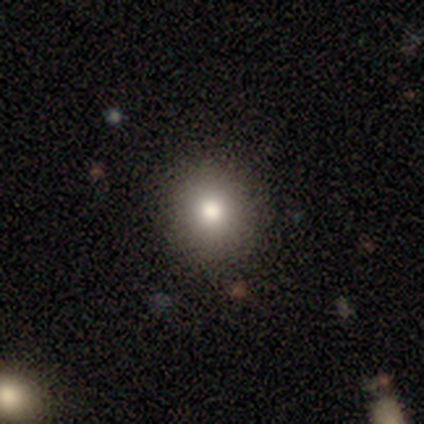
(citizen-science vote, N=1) smooth_or_featured: smooth (p=1.00)
how_rounded: round (p=1.00)
merging: none (p=1.00)